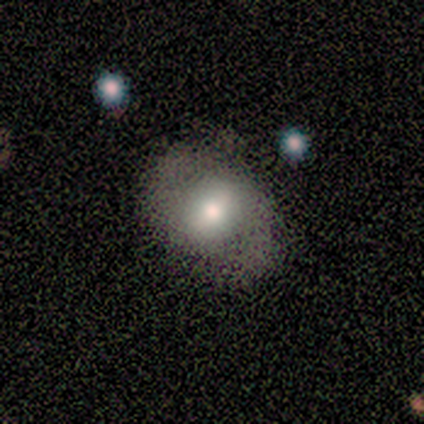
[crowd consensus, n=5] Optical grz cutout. It shows a smooth galaxy with no disk features (80%) that is round (50%, tied with in between). Merging: none (60%).